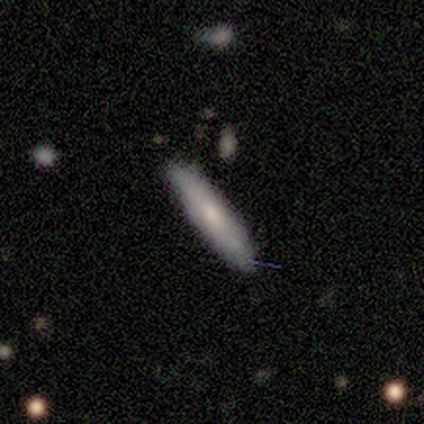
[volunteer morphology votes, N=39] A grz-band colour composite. It shows a smooth galaxy with no disk features (77%) that is cigar-shaped (80%). Merging: none (89%).